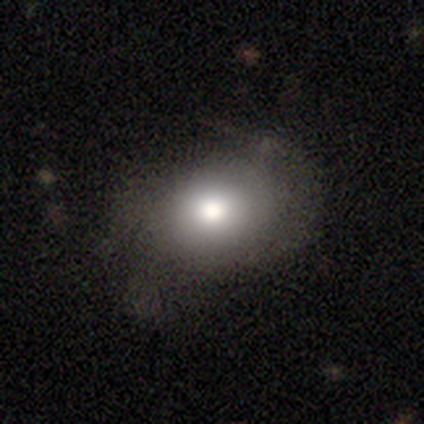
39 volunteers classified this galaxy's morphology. smooth-or-featured: smooth: 72% | featured or disk: 15% | star or artifact: 13%
  how-rounded: in between: 54% | round: 46% | cigar-shaped: 0%
  merging: none: 74% | minor disturbance: 18% | major disturbance: 9% | merger: 0%